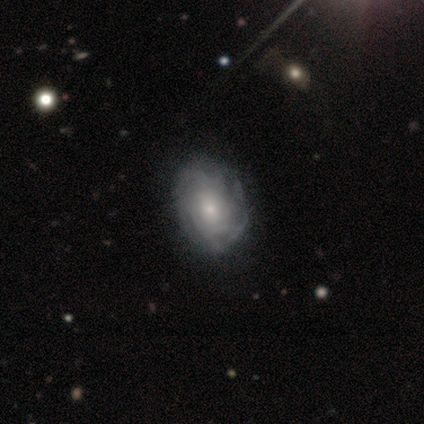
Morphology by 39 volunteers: Smooth or featured? featured or disk (77%)
Edge-on disk? no (90%)
Bar? no (89%)
Spiral arms? yes (78%)
Spiral winding? tight (76%)
Spiral arm count? can't tell (76%)
Bulge size? small (63%)
Merging? none (50%)